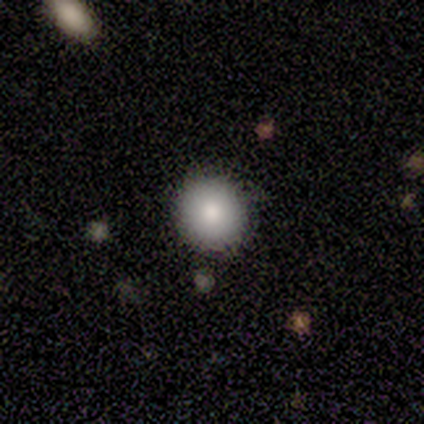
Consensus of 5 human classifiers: smooth-or-featured: smooth: 60% | featured or disk: 20% | star or artifact: 20%
  how-rounded: round: 100% | in between: 0% | cigar-shaped: 0%
  merging: none: 100% | minor disturbance: 0% | major disturbance: 0% | merger: 0%